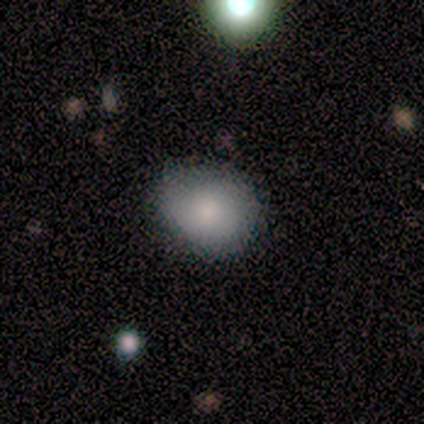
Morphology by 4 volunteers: Volunteers were most divided on "how rounded": round: 75%, in between: 25%, cigar-shaped: 0%. More confident: smooth or featured — smooth (100%); merging — none (100%).